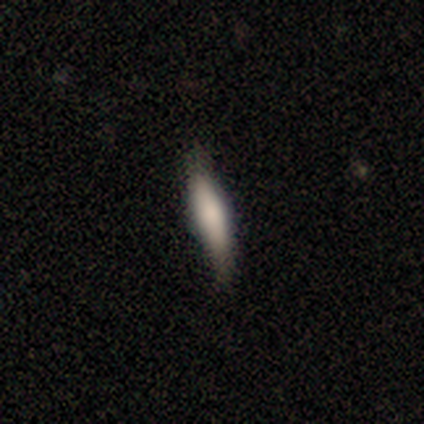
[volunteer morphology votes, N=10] A smooth galaxy with no disk features (60%) that is cigar-shaped (83%). Merging: none (50%, tied with minor disturbance).